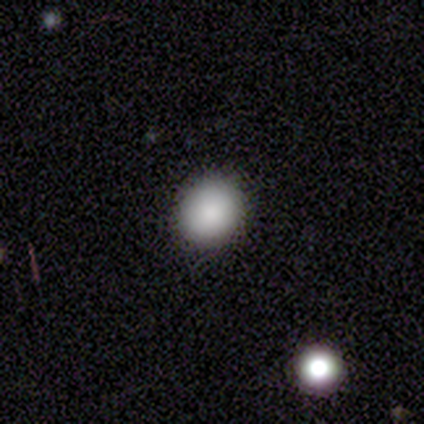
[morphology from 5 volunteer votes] smooth 100%, featured or disk 0%, star or artifact 0%. Down the decision tree: how rounded — round (100%); merging — none (80%).